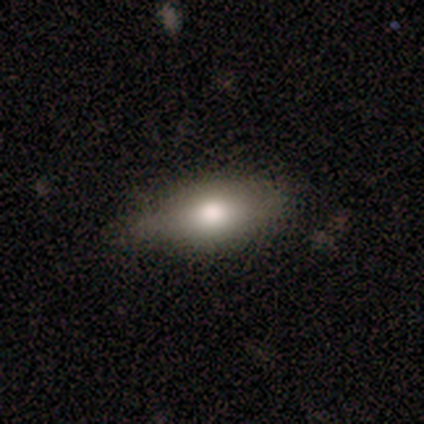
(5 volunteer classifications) This is likely a featured or disk galaxy (60%). It is likely not viewed edge-on (67%). Bar: clearly no (100%). Spiral arm pattern: clearly no (100%). Central bulge: clearly moderate (100%). Merging: marginally none (40%, tied with minor disturbance).